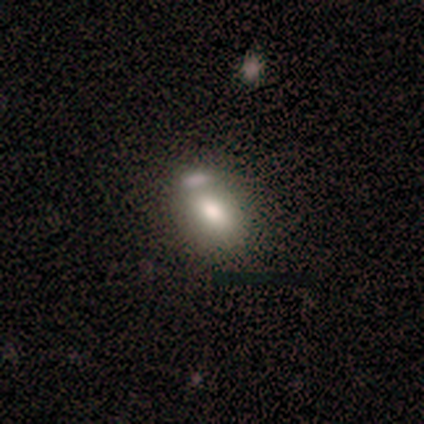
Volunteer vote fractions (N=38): smooth-or-featured: smooth: 84% | featured or disk: 11% | star or artifact: 5%
  how-rounded: in between: 81% | round: 16% | cigar-shaped: 3%
  merging: none: 39% | merger: 31% | minor disturbance: 28% | major disturbance: 3%